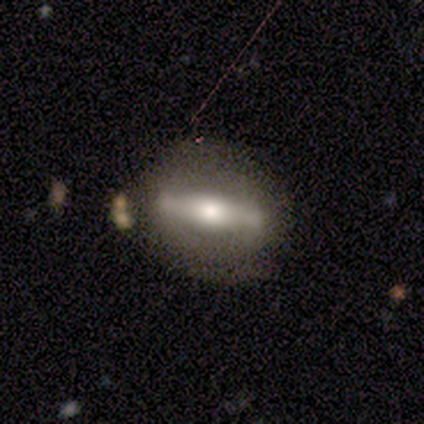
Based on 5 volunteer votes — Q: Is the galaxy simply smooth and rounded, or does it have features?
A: featured or disk — 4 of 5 (80%).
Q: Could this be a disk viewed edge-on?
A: yes — 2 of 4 (50%, tied with no).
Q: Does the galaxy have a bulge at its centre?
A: boxy — 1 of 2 (50%, tied with rounded).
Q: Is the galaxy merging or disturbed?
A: minor disturbance — 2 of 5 (40%).